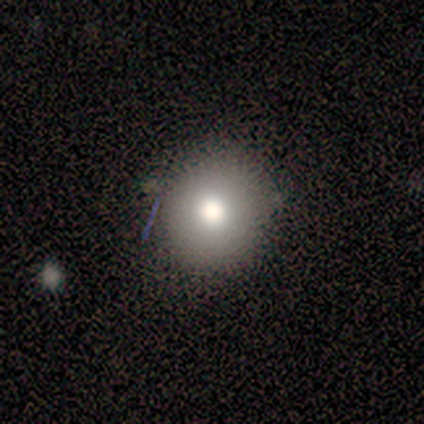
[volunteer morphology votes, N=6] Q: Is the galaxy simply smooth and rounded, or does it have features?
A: smooth — 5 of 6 (83%).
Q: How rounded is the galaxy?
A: round — 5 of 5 (100%).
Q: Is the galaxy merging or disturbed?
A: none — 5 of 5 (100%).